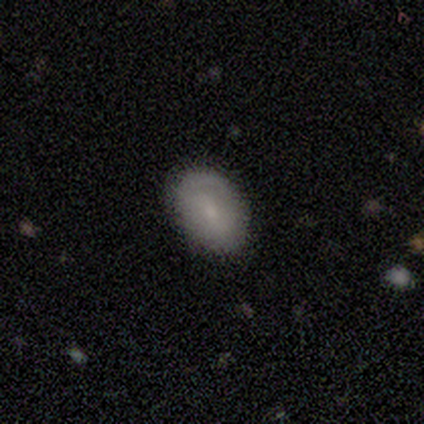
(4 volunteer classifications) Morphology: type=smooth (75%); roundness=in between (67%); merging=none (100%).